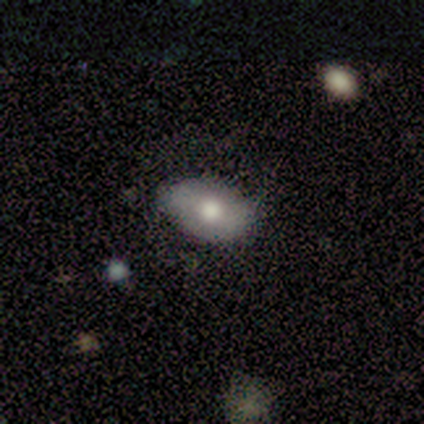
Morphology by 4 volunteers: Volunteers were most divided on "smooth or featured" (2-way tie): smooth: 50%, featured or disk: 50%, star or artifact: 0%; "how rounded" (2-way tie): round: 50%, in between: 50%, cigar-shaped: 0%. More confident: merging — none (75%).